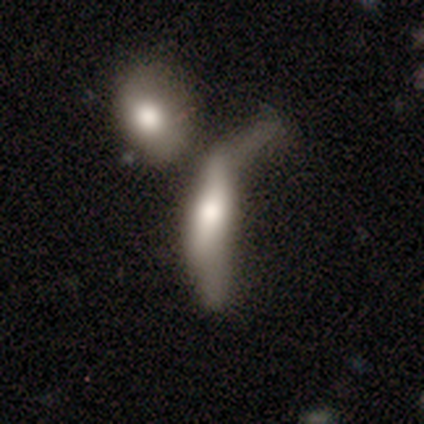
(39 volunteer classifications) A smooth galaxy with no disk features (54%) that is cigar-shaped (81%). Merging: merger (49%).